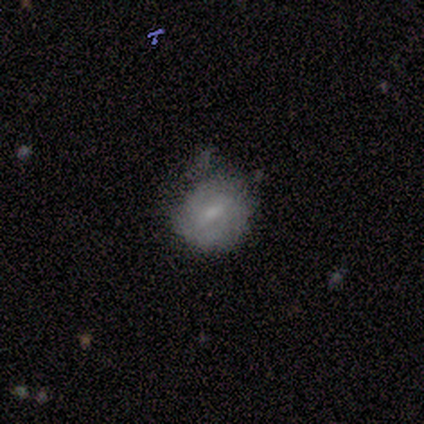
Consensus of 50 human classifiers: This is possibly a featured or disk galaxy (50%). It is clearly not viewed edge-on (96%). Bar: likely weak (62%). Spiral arm pattern: likely yes (75%). Spiral arm count: marginally 2 (39%). Spiral winding: likely tight (61%). Central bulge: possibly small (50%). Merging: possibly none (49%).